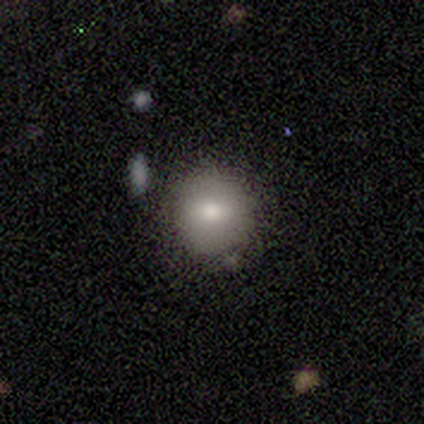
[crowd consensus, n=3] Overall: smooth (67%; featured or disk 33%). How rounded: round (100%). Merging: none (100%).